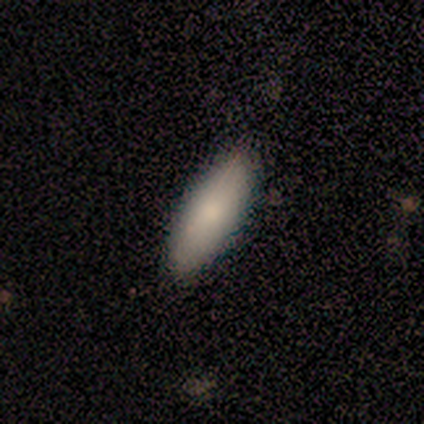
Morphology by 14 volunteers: A smooth galaxy with no disk features (100%) that is in between round and cigar-shaped (64%).

Vote fractions:
- Smooth or featured? smooth: 100% / featured or disk: 0% / star or artifact: 0%
- How rounded? in between: 64% / cigar-shaped: 36% / round: 0%
- Merging? none: 100% / minor disturbance: 0% / major disturbance: 0% / merger: 0%